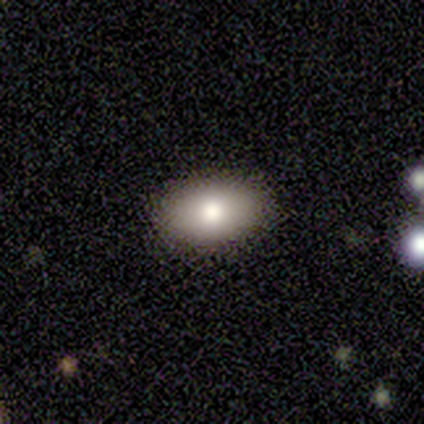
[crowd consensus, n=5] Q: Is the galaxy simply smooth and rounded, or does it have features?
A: smooth — 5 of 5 (100%).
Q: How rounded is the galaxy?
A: in between — 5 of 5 (100%).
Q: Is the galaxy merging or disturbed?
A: none — 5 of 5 (100%).